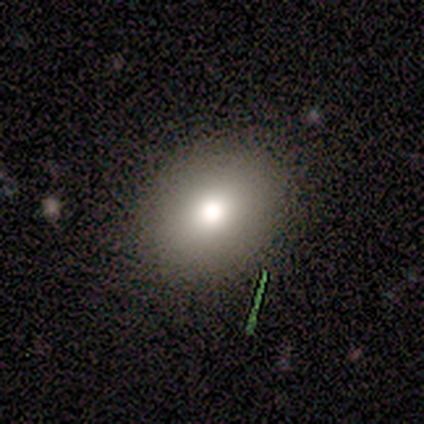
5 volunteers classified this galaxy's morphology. type=smooth (80%); roundness=round (75%); merging=none (75%).